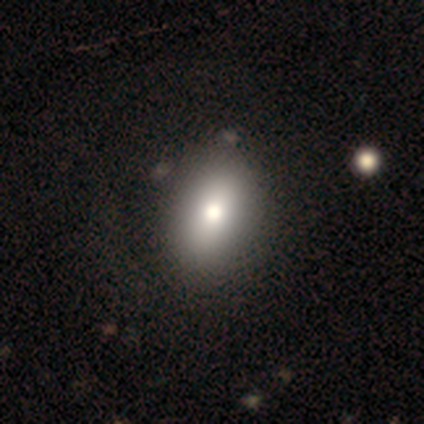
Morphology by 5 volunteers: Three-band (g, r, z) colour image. It shows a smooth galaxy with no disk features (100%) that is in between round and cigar-shaped (100%). Merging: none (80%).